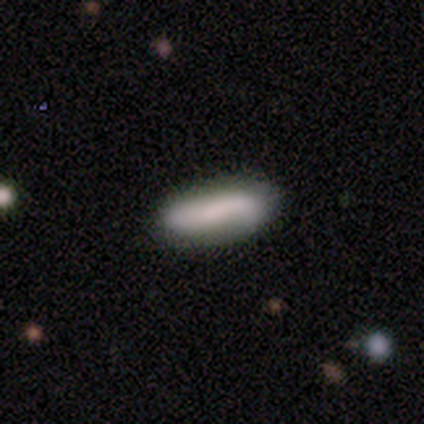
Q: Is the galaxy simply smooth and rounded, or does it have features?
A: smooth — 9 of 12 (75%).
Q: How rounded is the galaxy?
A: in between — 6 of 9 (67%).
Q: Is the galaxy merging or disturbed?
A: none — 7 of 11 (64%).